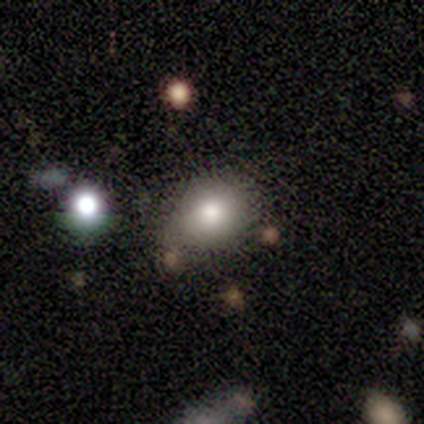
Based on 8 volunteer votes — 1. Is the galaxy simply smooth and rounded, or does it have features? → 62% smooth, 25% star or artifact, 12% featured or disk.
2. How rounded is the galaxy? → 60% in between, 40% round, 0% cigar-shaped.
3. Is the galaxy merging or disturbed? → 67% none, 33% minor disturbance, 0% major disturbance, 0% merger.